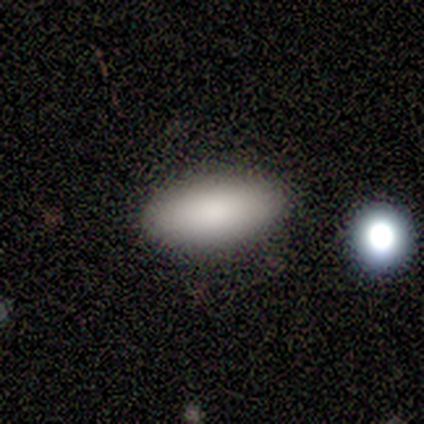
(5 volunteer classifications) This is clearly a smooth galaxy (100%). How rounded: clearly in between (100%). Merging: clearly none (100%).